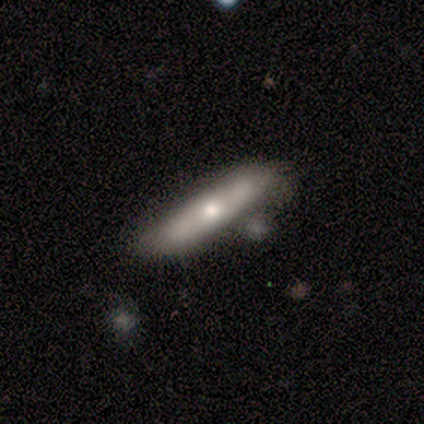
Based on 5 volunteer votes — A smooth galaxy with no disk features (60%) that is cigar-shaped (100%).

Vote fractions:
- Smooth or featured? smooth: 60% / featured or disk: 40% / star or artifact: 0%
- How rounded? cigar-shaped: 100% / round: 0% / in between: 0%
- Merging? minor disturbance: 60% / none: 40% / major disturbance: 0% / merger: 0%